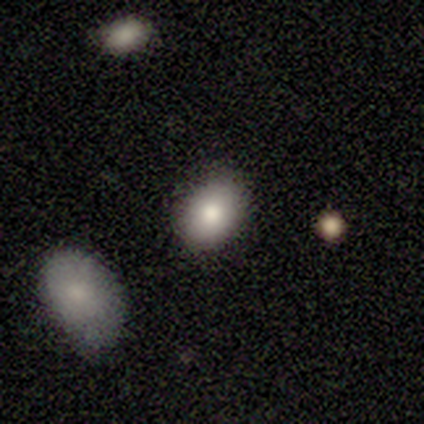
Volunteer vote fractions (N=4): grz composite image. It shows a smooth galaxy with no disk features (100%) that is round (50%, tied with in between). Merging: none (100%).